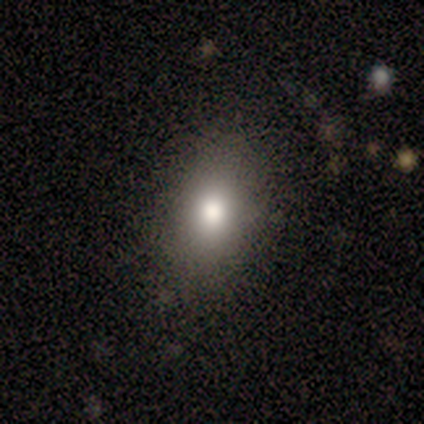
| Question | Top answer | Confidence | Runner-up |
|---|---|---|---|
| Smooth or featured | smooth | 100% | — |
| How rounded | in between | 75% | round (25%) |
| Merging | none | 75% | major disturbance (25%) |